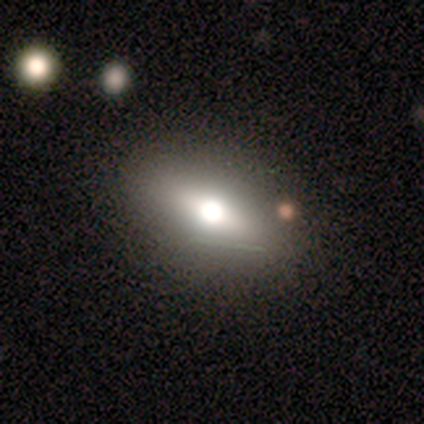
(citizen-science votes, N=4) Q: Smooth or featured?
A: smooth (50%); tied with: featured or disk (50%)
Q: How rounded?
A: in between (100%)
Q: Merging?
A: none (100%)